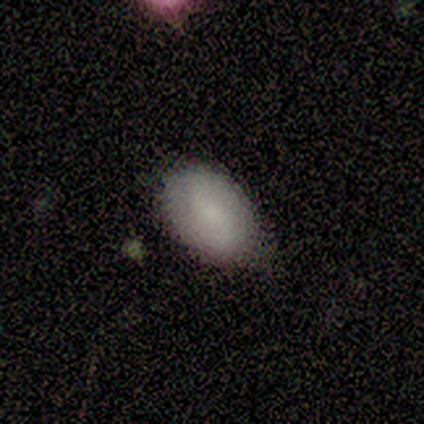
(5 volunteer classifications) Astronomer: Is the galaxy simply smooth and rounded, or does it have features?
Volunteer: smooth — 80%.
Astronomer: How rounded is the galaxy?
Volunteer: in between — 75%.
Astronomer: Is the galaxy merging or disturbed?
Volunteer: none — 40%, tied with minor disturbance at 40%.